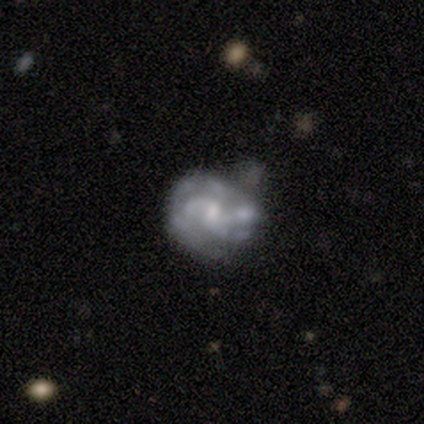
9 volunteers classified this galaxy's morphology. Volunteers were most divided on "bulge size" (2-way tie): moderate: 43%, small: 43%, none: 14%, dominant: 0%, large: 0%. Remaining: edge-on disk — no (100%); spiral winding — tight (80%); smooth or featured — featured or disk (78%); spiral arms — yes (71%); merging — none (71%); bar — no (71%); spiral arm count — can't tell (40%).